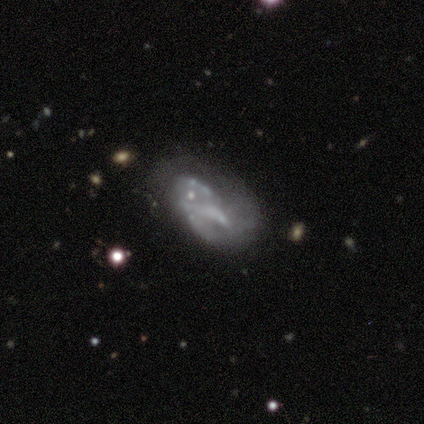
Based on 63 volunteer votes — Volunteers were most divided on "merging": none: 26%, major disturbance: 19%, merger: 17%, minor disturbance: 16%. More confident: edge-on disk — no (98%); bulge size — none (76%); bar — no (71%); spiral arms — no (69%); smooth or featured — featured or disk (68%).